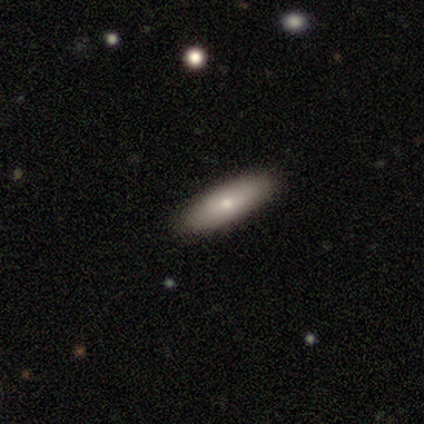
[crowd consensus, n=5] Q: Smooth or featured?
A: smooth (80%); runner-up: featured or disk (20%)
Q: How rounded?
A: in between (50%); tied with: cigar-shaped (50%)
Q: Merging?
A: none (100%)